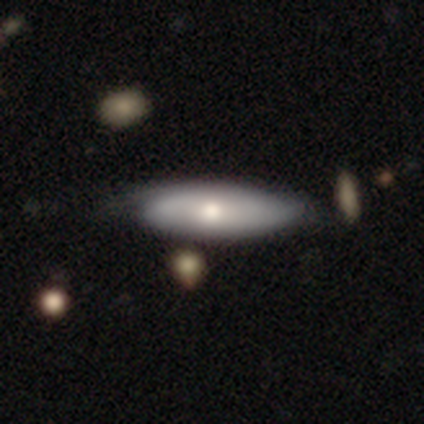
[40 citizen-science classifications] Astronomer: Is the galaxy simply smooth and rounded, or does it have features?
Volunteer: smooth — 52% (runner-up: featured or disk, 48%).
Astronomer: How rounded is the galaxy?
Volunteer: in between — 57% (runner-up: cigar-shaped, 33%).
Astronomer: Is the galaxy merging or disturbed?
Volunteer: none — 48%.